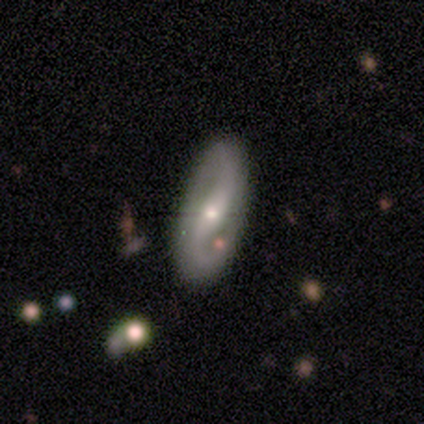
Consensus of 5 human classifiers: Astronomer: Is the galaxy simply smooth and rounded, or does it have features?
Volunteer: featured or disk — 80%.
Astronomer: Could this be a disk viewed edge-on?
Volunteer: no — 100%.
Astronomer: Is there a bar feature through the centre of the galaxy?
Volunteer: weak — 50%, tied with no at 50%.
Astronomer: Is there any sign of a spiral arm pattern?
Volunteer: yes — 100%.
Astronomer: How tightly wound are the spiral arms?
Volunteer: loose — 75%.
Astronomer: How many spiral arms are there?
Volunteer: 2 — 100%.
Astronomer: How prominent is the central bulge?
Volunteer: small — 75%.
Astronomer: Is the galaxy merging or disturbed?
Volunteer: none — 80%.